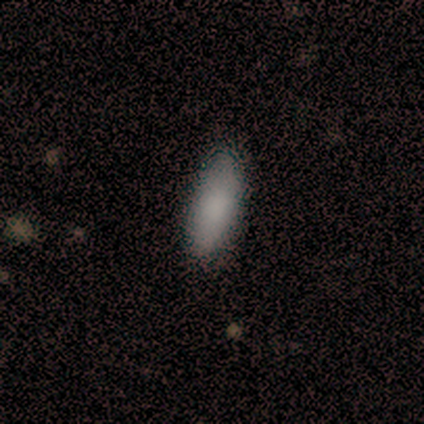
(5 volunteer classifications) This is clearly a smooth galaxy (100%). How rounded: likely cigar-shaped (60%). Merging: clearly none (80%).